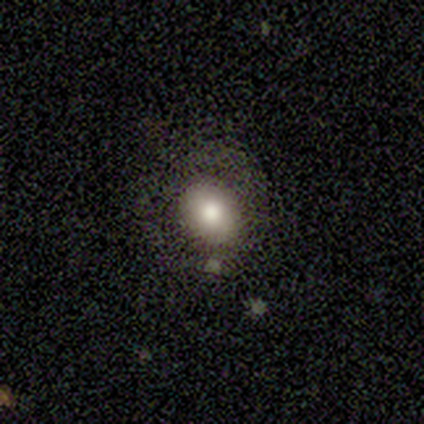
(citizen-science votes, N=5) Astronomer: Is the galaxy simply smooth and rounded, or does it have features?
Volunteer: smooth — 60%.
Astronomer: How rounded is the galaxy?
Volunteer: in between — 67%.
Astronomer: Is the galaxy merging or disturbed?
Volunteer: none — 75%.